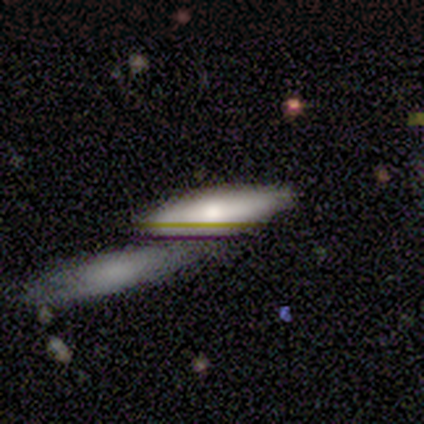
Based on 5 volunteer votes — smooth-or-featured: smooth: 80% | star or artifact: 20% | featured or disk: 0%
  how-rounded: cigar-shaped: 75% | in between: 25% | round: 0%
  merging: merger: 75% | none: 25% | minor disturbance: 0% | major disturbance: 0%